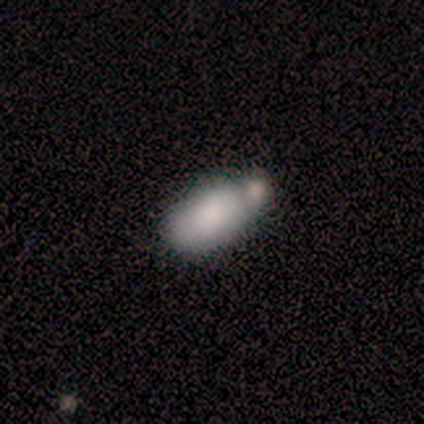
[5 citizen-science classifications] smooth 80%, featured or disk 20%, star or artifact 0%. Down the decision tree: how rounded — in between (100%); merging — none (60%).